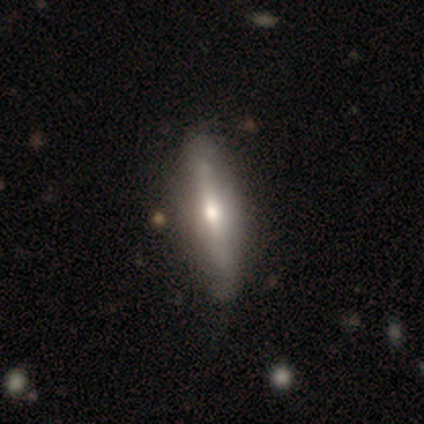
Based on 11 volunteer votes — This is possibly a featured or disk galaxy (55%). It is clearly viewed edge-on (100%). Edge-on bulge: clearly rounded (100%). Merging: clearly none (82%).